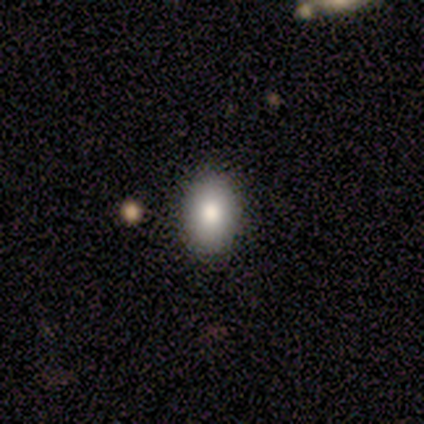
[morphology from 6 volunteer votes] Overall: smooth (83%). How rounded: in between (80%). Merging: none (83%).